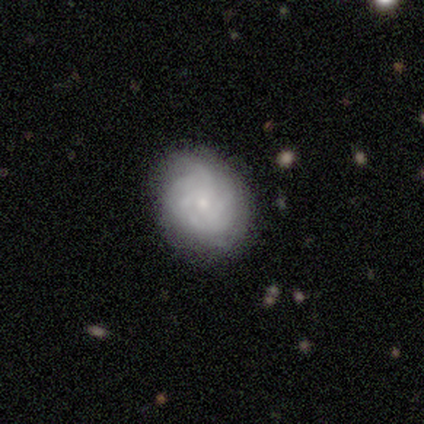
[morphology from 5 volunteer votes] featured or disk 60%, smooth 40%, star or artifact 0%. Down the decision tree: edge-on disk — no (100%); bar — no (100%); spiral arms — yes (100%); spiral arm count — 3 (33%, tied with 4 and more than 4); spiral winding — tight (100%); bulge size — small (67%); merging — none (80%).